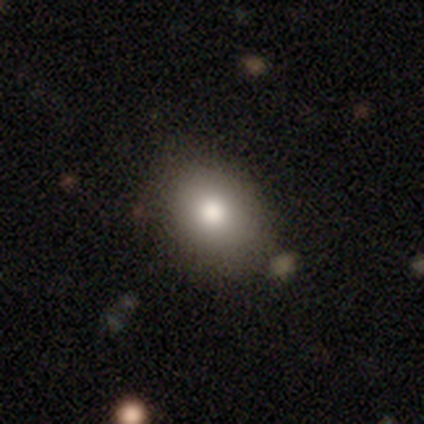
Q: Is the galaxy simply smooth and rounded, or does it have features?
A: smooth — 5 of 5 (100%).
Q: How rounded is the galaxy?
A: round — 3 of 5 (60%).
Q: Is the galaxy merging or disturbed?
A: none — 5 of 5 (100%).